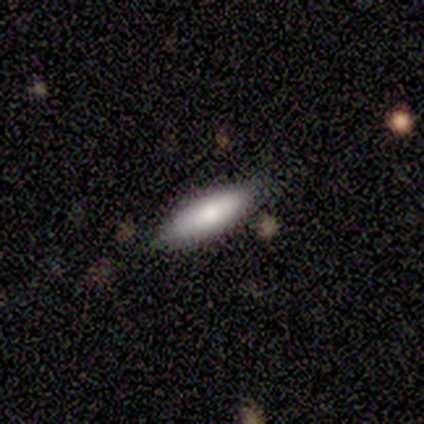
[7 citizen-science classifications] Overall: smooth (100%). How rounded: in between (86%). Merging: none (86%).